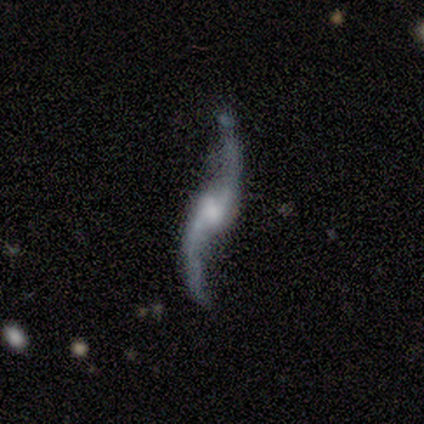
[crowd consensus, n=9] This is clearly a featured or disk galaxy (100%). It is clearly not viewed edge-on (89%). Bar: marginally weak (38%, tied with no). Spiral arm pattern: clearly yes (100%). Spiral arm count: clearly 2 (88%). Spiral winding: likely loose (75%). Central bulge: possibly large (50%). Merging: likely none (78%).